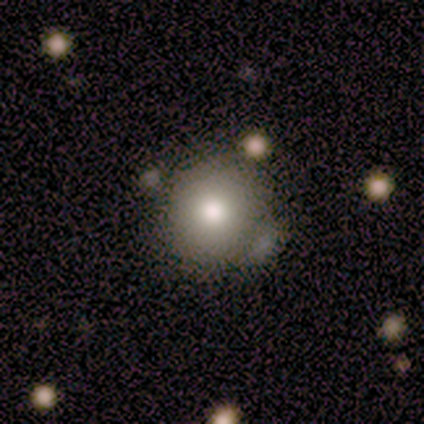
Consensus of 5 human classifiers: smooth_or_featured: smooth (p=0.80) [alt: featured or disk p=0.20]
how_rounded: round (p=0.75) [alt: in between p=0.25]
merging: none (p=0.60) [alt: minor disturbance p=0.20]